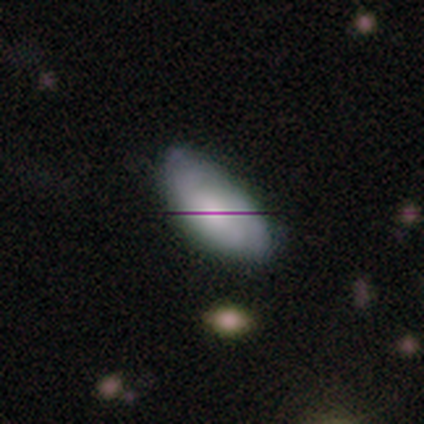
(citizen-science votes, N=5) smooth 60%, featured or disk 20%, star or artifact 20%. Down the decision tree: how rounded — in between (100%); merging — none (50%, tied with minor disturbance).